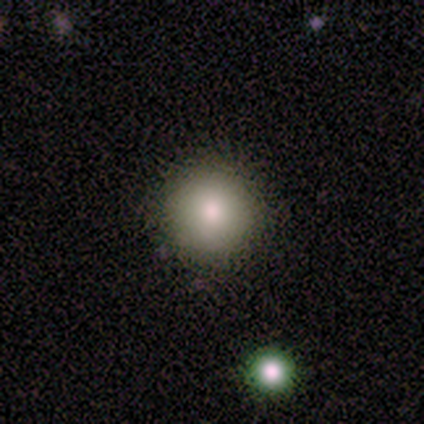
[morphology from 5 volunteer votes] Q: Smooth or featured?
A: smooth (80%); runner-up: star or artifact (20%)
Q: How rounded?
A: round (100%)
Q: Merging?
A: none (100%)